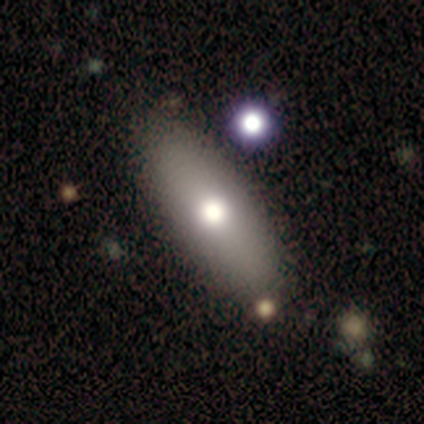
smooth 71%, featured or disk 21%, star or artifact 7%. Down the decision tree: how rounded — in between (60%); merging — none (46%).